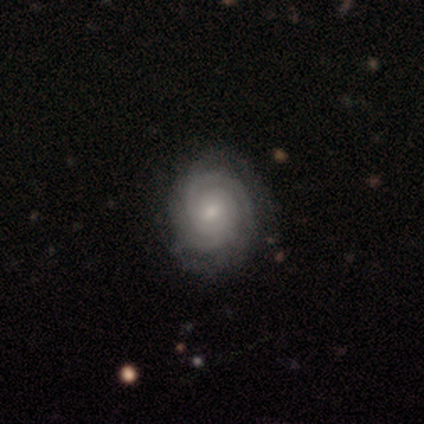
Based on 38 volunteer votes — A featured or disk galaxy (92%) with no bar (71%), 2 (35%) tight (91%) spiral arms (100%) and a small central bulge (53%).

Vote fractions:
- Smooth or featured? featured or disk: 92% / smooth: 8% / star or artifact: 0%
- Edge-on disk? no: 97% / yes: 3%
- Bar? no: 71% / weak: 29% / strong: 0%
- Spiral arms? yes: 100% / no: 0%
- Spiral winding? tight: 91% / medium: 9% / loose: 0%
- Spiral arm count? 2: 35% / can't tell: 32% / 3: 18% / 4: 12% / more than 4: 3% / 1: 0%
- Bulge size? small: 53% / moderate: 38% / large: 9% / dominant: 0% / none: 0%
- Merging? none: 63% / major disturbance: 5% / minor disturbance: 3% / merger: 0%